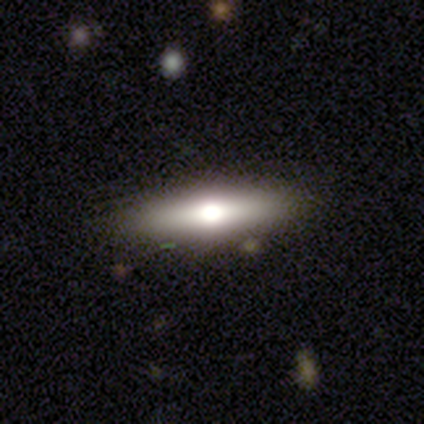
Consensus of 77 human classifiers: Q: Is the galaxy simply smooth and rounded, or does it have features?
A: smooth — 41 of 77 (53%).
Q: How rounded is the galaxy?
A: cigar-shaped — 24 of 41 (59%).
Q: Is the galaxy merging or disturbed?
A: none — 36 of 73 (49%).